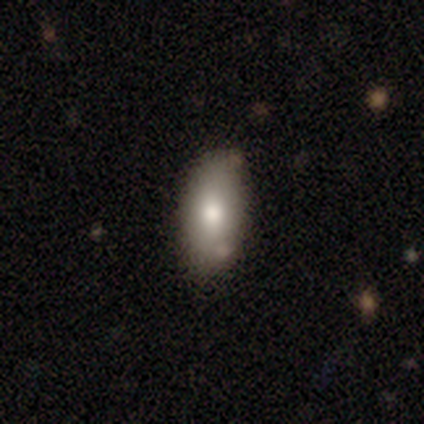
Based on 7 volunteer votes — Smooth or featured?
  - smooth: 86% *
  - star or artifact: 14%
  - featured or disk: 0%
How rounded?
  - in between: 100% *
  - round: 0%
  - cigar-shaped: 0%
Merging?
  - none: 67% *
  - minor disturbance: 33%
  - major disturbance: 0%
  - merger: 0%